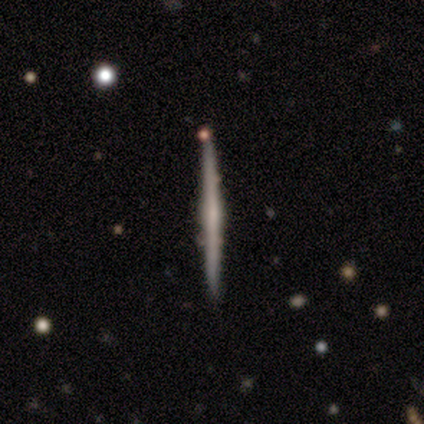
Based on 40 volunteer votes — Q: Smooth or featured?
A: featured or disk (72%); runner-up: smooth (25%)
Q: Edge-on disk?
A: yes (97%); runner-up: no (3%)
Q: Edge-on bulge?
A: none (68%); runner-up: rounded (21%)
Q: Merging?
A: none (82%); runner-up: minor disturbance (10%)